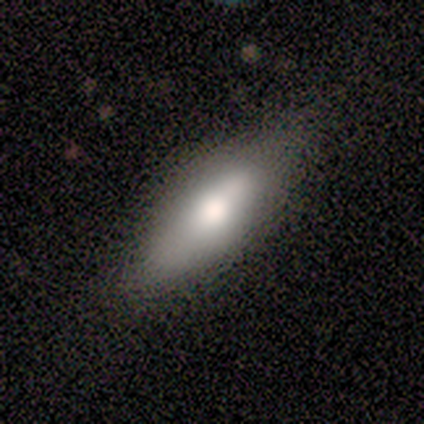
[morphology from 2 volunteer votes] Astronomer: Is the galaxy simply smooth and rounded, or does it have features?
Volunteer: smooth — 50%, tied with featured or disk at 50%.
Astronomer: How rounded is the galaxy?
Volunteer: in between — 100%.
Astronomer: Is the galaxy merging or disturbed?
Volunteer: none — 50%, tied with merger at 50%.